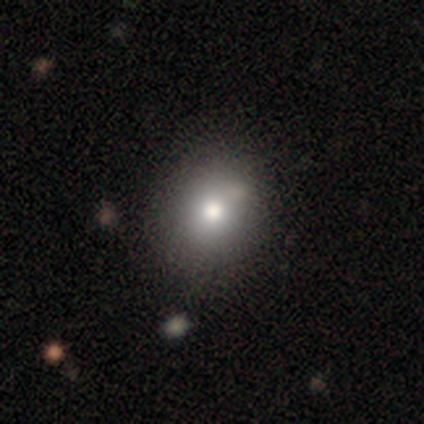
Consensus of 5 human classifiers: Morphology: type=featured or disk (60%); edge-on=no (100%); bar=no (67%); spiral arms=no (100%); bulge=large (33%, tied with moderate and small); merging=none (80%).